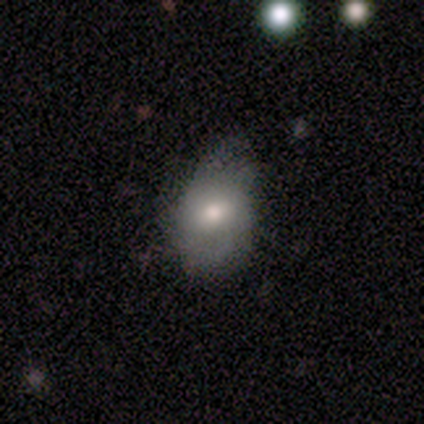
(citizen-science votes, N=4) This appears to be a smooth galaxy with no disk features (75%) that is in between round and cigar-shaped (100%). Merging: minor disturbance (75%).